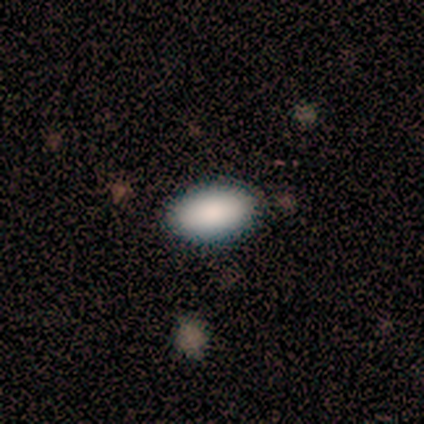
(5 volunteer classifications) Smooth or featured? 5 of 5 (100%) said smooth. How rounded? 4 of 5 (80%) said in between. Merging? 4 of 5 (80%) said none.